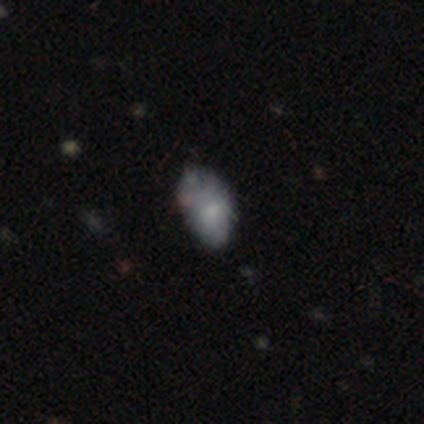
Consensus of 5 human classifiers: smooth-or-featured: smooth: 40% (tied) | star or artifact: 40% (tied) | featured or disk: 20%
  how-rounded: in between: 100% | round: 0% | cigar-shaped: 0%
  merging: none: 67% | minor disturbance: 33% | major disturbance: 0% | merger: 0%